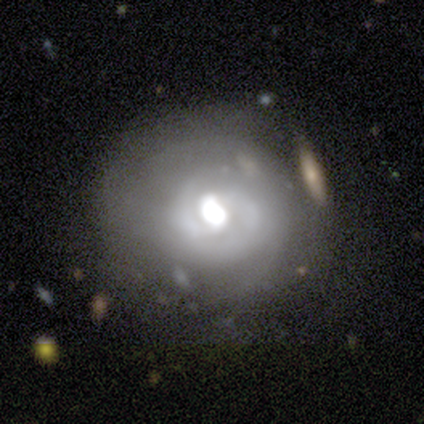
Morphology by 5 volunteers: Smooth or featured? 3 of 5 (60%) said featured or disk. Edge-on disk? 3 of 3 (100%) said no. Bar? 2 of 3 (67%) said weak. Spiral arms? 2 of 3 (67%) said yes. Spiral winding? 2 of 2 (100%) said tight. Spiral arm count? 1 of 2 (50%, tied with 3) said 2. Bulge size? 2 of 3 (67%) said large. Merging? 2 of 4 (50%) said minor disturbance.